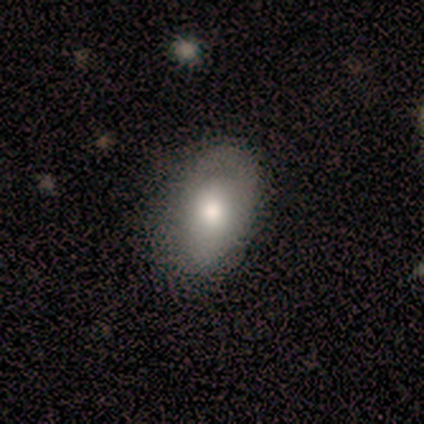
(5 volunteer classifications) Smooth or featured: smooth — 40% (tied with featured or disk — 40%)
How rounded: in between — 100%
Merging: none — 50% (tied with minor disturbance — 50%)